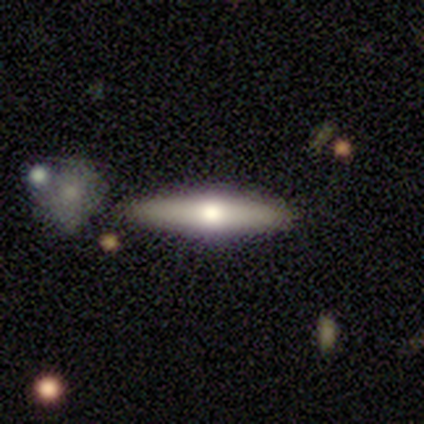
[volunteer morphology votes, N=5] A smooth galaxy with no disk features (60%) that is in between round and cigar-shaped (67%). Merging: none (100%).